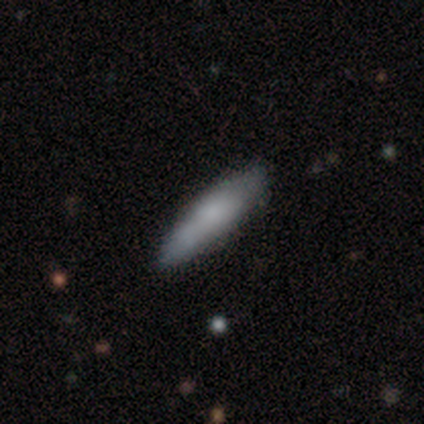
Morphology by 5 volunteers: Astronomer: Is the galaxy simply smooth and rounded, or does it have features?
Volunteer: smooth — 80%.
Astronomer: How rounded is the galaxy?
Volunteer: cigar-shaped — 75%.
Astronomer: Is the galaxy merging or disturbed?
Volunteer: none — 80%.